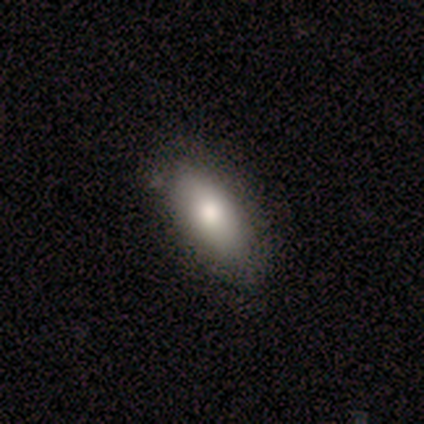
Q: Smooth or featured?
A: smooth (85%); runner-up: featured or disk (15%)
Q: How rounded?
A: in between (82%); runner-up: round (9%)
Q: Merging?
A: none (100%)